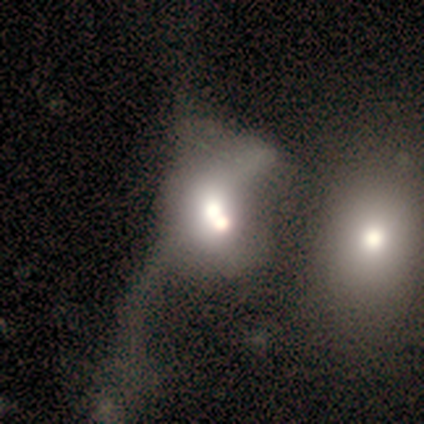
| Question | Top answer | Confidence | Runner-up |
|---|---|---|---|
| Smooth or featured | smooth | 60% | featured or disk (20%) |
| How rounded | in between | 67% | round (33%) |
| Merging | merger | 50% | none (25%) |